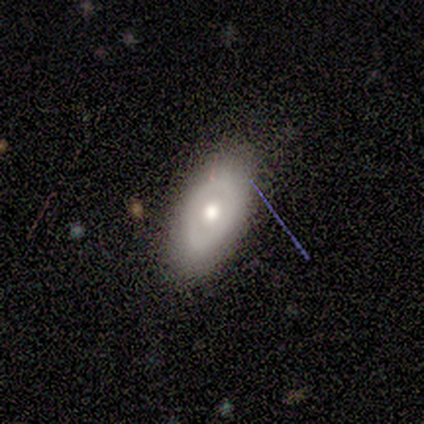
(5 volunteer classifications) A smooth galaxy with no disk features (80%) that is in between round and cigar-shaped (75%).

Vote fractions:
- Smooth or featured? smooth: 80% / featured or disk: 20% / star or artifact: 0%
- How rounded? in between: 75% / round: 25% / cigar-shaped: 0%
- Merging? none: 80% / major disturbance: 20% / minor disturbance: 0% / merger: 0%